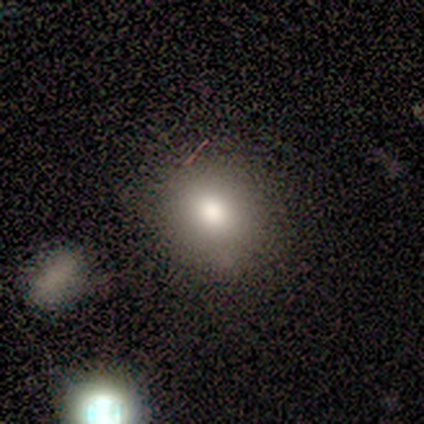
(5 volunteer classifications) Smooth or featured? smooth (60%)
How rounded? round (100%)
Merging? none (80%)